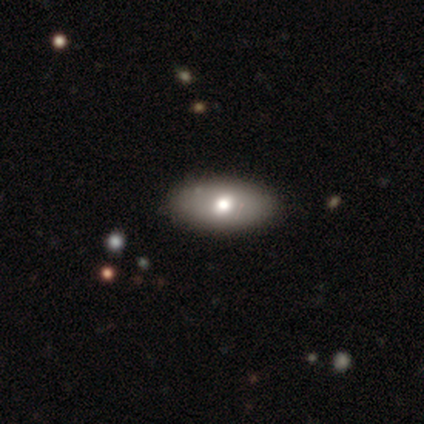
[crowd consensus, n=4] This appears to be a smooth galaxy with no disk features (50%, tied with featured or disk) that is in between round and cigar-shaped (100%). Merging: none (100%).